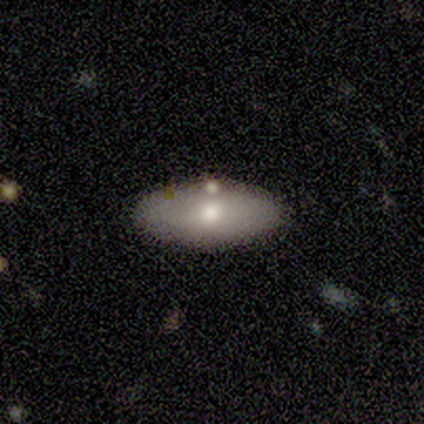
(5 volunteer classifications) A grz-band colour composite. It shows a smooth galaxy with no disk features (100%) that is in between round and cigar-shaped (80%). Merging: none (100%).